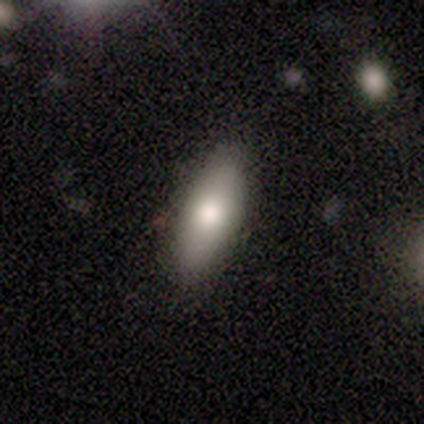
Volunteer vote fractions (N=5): smooth 100%, featured or disk 0%, star or artifact 0%. Down the decision tree: how rounded — in between (100%); merging — none (60%).